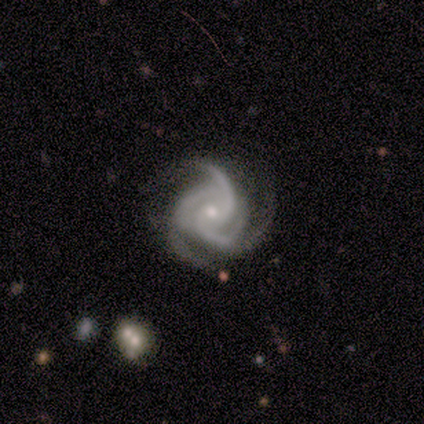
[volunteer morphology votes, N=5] Q: Smooth or featured?
A: featured or disk (80%); runner-up: smooth (20%)
Q: Edge-on disk?
A: no (100%)
Q: Bar?
A: no (100%)
Q: Spiral arms?
A: yes (100%)
Q: Spiral winding?
A: tight (100%)
Q: Spiral arm count?
A: 3 (100%)
Q: Bulge size?
A: small (100%)
Q: Merging?
A: none (80%); runner-up: minor disturbance (20%)